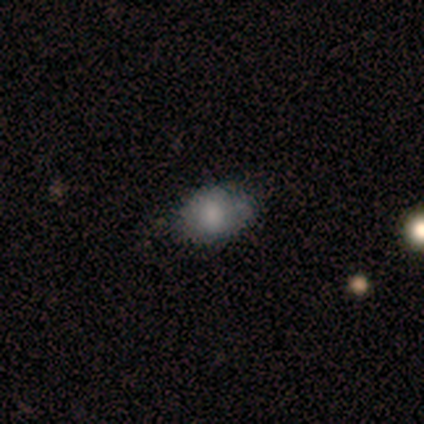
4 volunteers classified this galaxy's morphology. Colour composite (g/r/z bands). It shows a smooth galaxy with no disk features (100%) that is in between round and cigar-shaped (100%). Merging: none (75%).